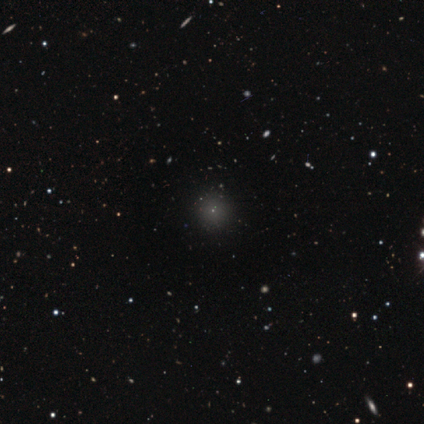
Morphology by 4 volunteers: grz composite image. It shows a smooth galaxy with no disk features (100%) that is round (100%). Merging: none (75%).